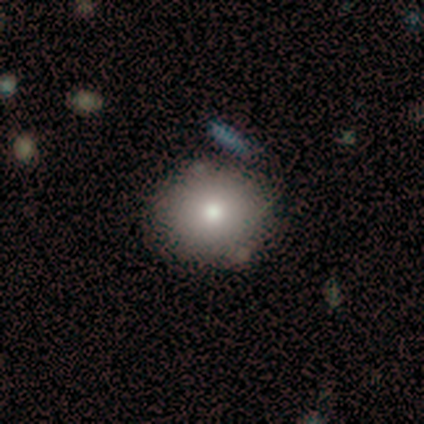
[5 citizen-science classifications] This appears to be a smooth galaxy with no disk features (80%) that is round (75%). Merging: none (80%).